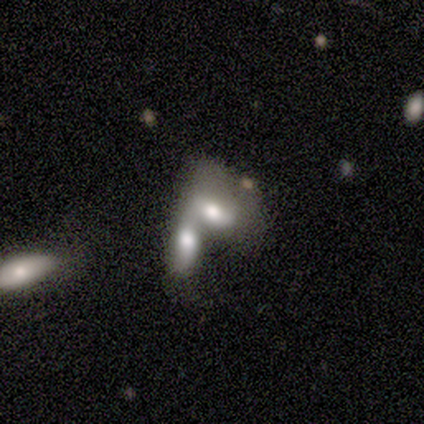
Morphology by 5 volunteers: A smooth galaxy with no disk features (80%) that is in between round and cigar-shaped (75%).

Vote fractions:
- Smooth or featured? smooth: 80% / featured or disk: 20% / star or artifact: 0%
- How rounded? in between: 75% / cigar-shaped: 25% / round: 0%
- Merging? merger: 100% / none: 0% / minor disturbance: 0% / major disturbance: 0%